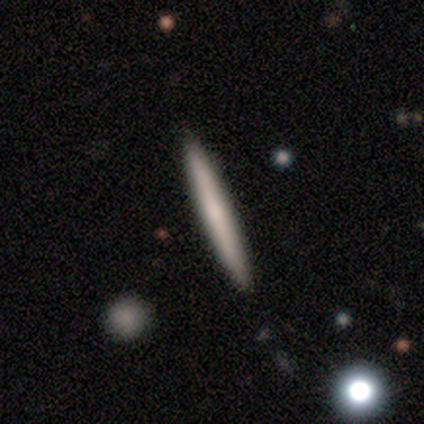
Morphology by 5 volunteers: Q: Smooth or featured?
A: smooth (100%)
Q: How rounded?
A: cigar-shaped (100%)
Q: Merging?
A: none (100%)